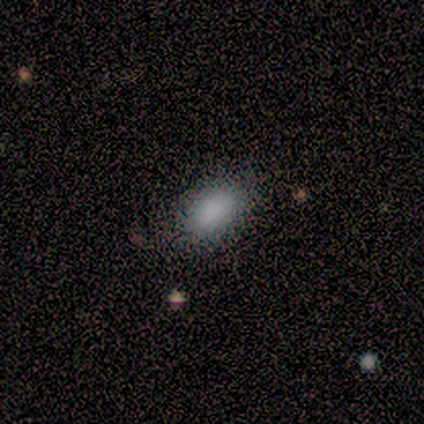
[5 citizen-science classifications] smooth_or_featured: smooth (p=1.00)
how_rounded: in between (p=0.60) [alt: round p=0.40]
merging: none (p=1.00)